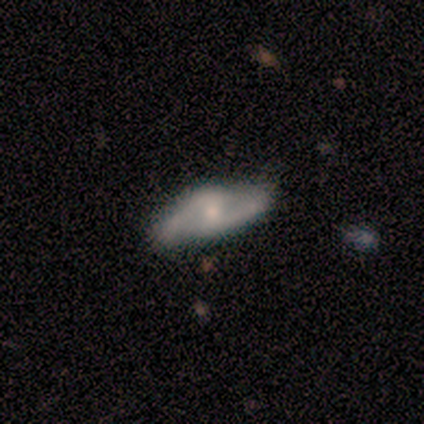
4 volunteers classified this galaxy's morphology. Volunteers were most divided on "merging" (2-way tie): none: 50%, minor disturbance: 50%, major disturbance: 0%, merger: 0%. More confident: edge-on disk — no (100%); spiral winding — medium (100%); spiral arm count — 2 (100%); smooth or featured — featured or disk (75%); bar — weak (67%); spiral arms — yes (67%); bulge size — small (67%).